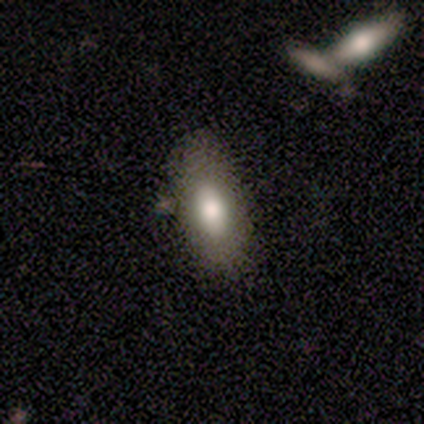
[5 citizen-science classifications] Smooth or featured: smooth — 60% (featured or disk — 40%)
How rounded: in between — 67% (cigar-shaped — 33%)
Merging: none — 80% (minor disturbance — 20%)